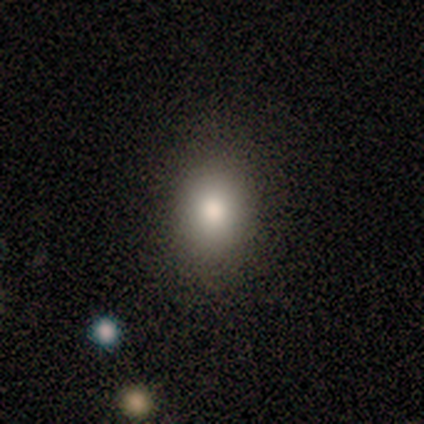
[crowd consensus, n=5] smooth-or-featured: smooth: 60% | featured or disk: 40% | star or artifact: 0%
  how-rounded: in between: 100% | round: 0% | cigar-shaped: 0%
  merging: none: 100% | minor disturbance: 0% | major disturbance: 0% | merger: 0%